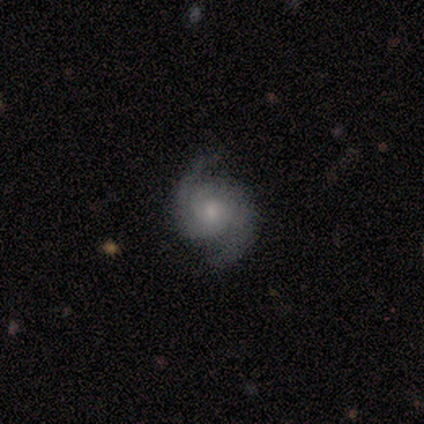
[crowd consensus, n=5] This is clearly a featured or disk galaxy (100%). It is clearly not viewed edge-on (100%). Bar: clearly no (80%). Spiral arm pattern: clearly yes (100%). Spiral arm count: clearly 2 (100%). Spiral winding: likely tight (60%). Central bulge: clearly moderate (80%). Merging: clearly none (80%).